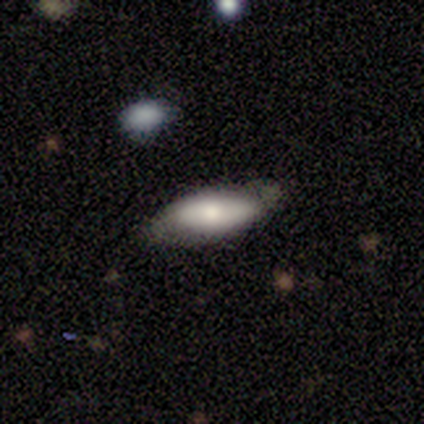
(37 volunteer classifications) Smooth or featured? 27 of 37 (73%) said smooth. How rounded? 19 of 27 (70%) said in between. Merging? 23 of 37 (62%) said none.